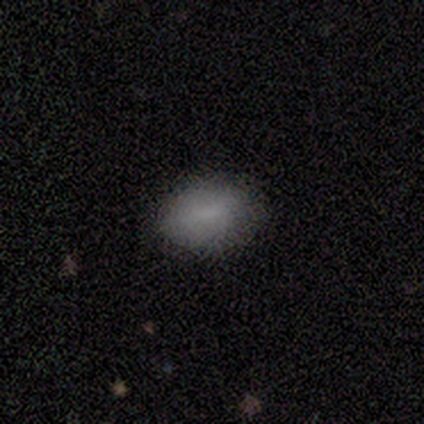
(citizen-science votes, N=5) smooth 80%, featured or disk 20%, star or artifact 0%. Down the decision tree: how rounded — in between (100%); merging — none (60%).